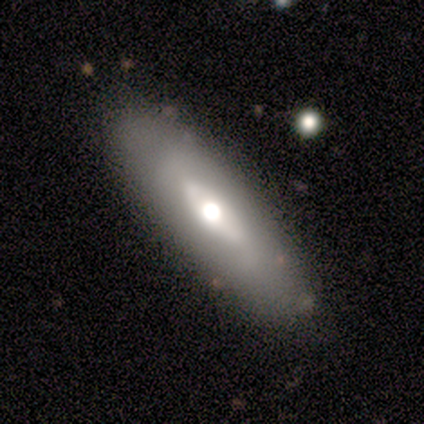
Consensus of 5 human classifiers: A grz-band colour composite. It shows a smooth galaxy with no disk features (80%) that is cigar-shaped (75%). Merging: none (80%).